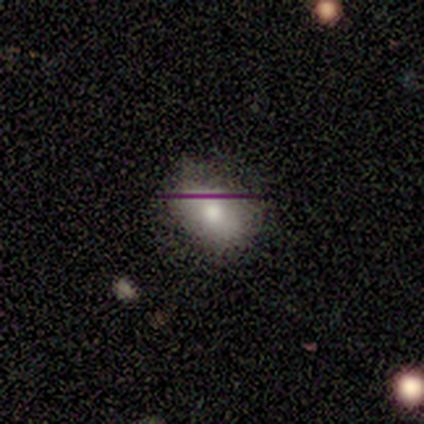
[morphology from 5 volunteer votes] smooth 40% (tied), featured or disk 40% (tied), star or artifact 20%. Down the decision tree: how rounded — round (50%, tied with in between); merging — none (75%).